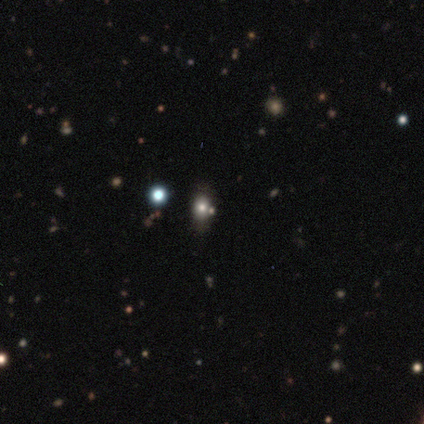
Smooth or featured: smooth — 50% (tied with star or artifact — 50%)
How rounded: in between — 100%
Merging: none — 100%